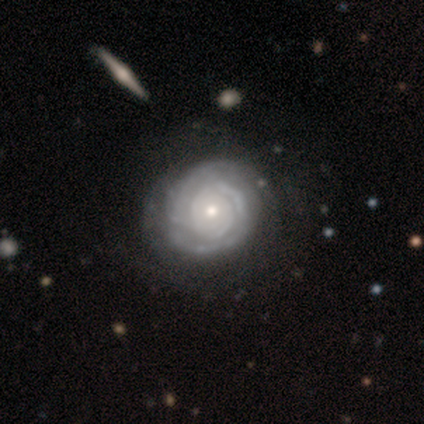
Smooth or featured? featured or disk (80%)
Edge-on disk? no (100%)
Bar? no (100%)
Spiral arms? yes (100%)
Spiral winding? tight (75%)
Spiral arm count? can't tell (50%)
Bulge size? small (50%)
Merging? none (75%)